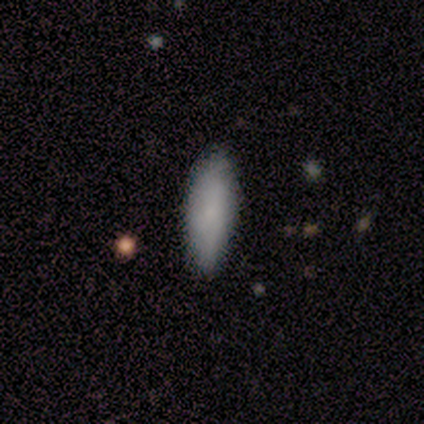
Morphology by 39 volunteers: Smooth or featured: smooth — 92% (star or artifact — 5%)
How rounded: in between — 53% (cigar-shaped — 47%)
Merging: none — 78% (minor disturbance — 22%)